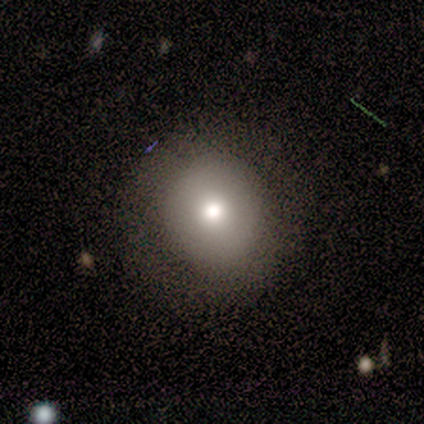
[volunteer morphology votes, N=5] Overall: smooth (100%). How rounded: round (100%). Merging: none (100%).